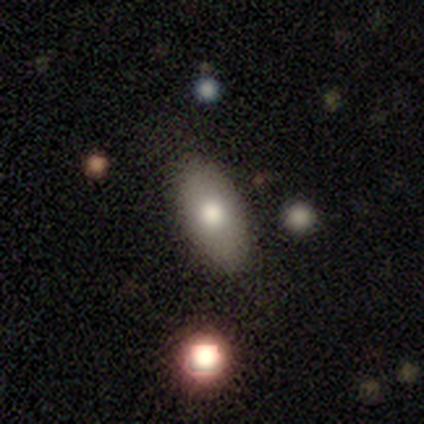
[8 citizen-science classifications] smooth-or-featured: smooth: 75% | featured or disk: 12% | star or artifact: 12%
  how-rounded: in between: 100% | round: 0% | cigar-shaped: 0%
  merging: none: 86% | minor disturbance: 14% | major disturbance: 0% | merger: 0%